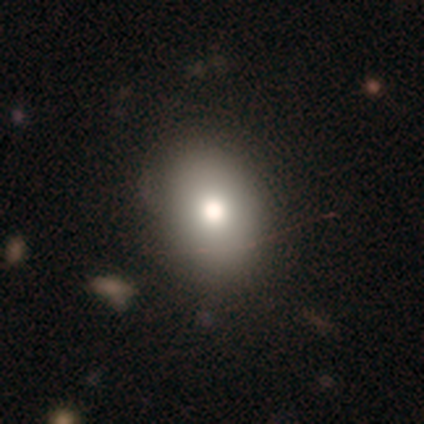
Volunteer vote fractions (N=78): smooth 85%, featured or disk 10%, star or artifact 5%. Down the decision tree: how rounded — in between (71%); merging — none (54%).